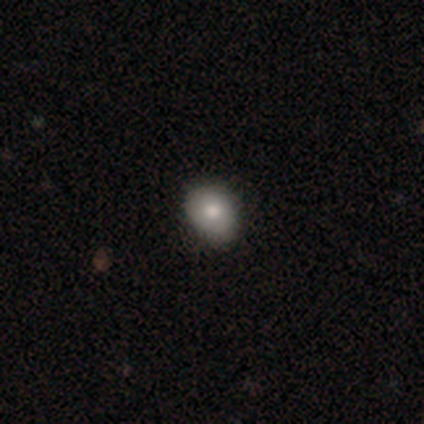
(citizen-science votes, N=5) Morphology: type=smooth (100%); roundness=round (80%); merging=minor disturbance (60%).